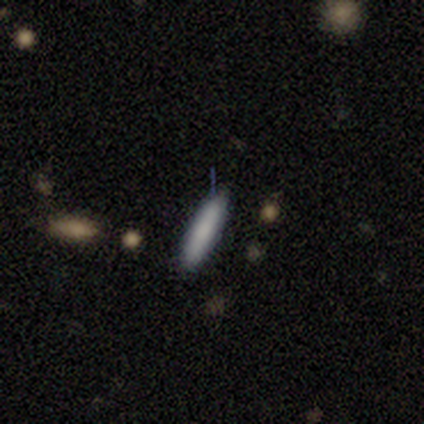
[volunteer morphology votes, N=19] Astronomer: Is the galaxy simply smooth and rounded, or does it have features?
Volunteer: smooth — 84%.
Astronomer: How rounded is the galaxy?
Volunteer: cigar-shaped — 75%.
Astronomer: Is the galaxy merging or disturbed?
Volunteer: none — 95%.